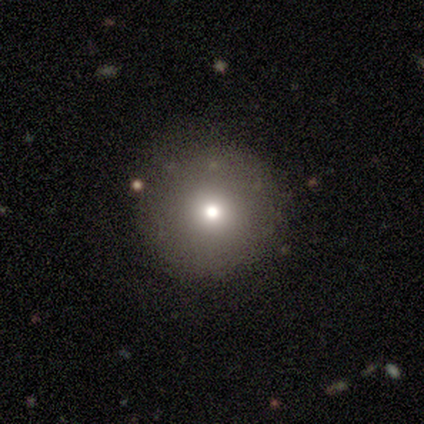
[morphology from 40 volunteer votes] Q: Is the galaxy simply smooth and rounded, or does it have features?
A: smooth — 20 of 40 (50%).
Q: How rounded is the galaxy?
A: round — 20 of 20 (100%).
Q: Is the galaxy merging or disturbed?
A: none — 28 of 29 (97%).